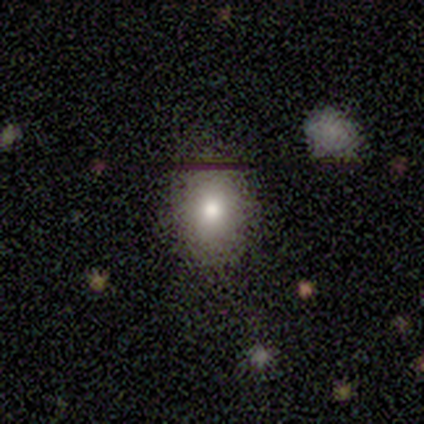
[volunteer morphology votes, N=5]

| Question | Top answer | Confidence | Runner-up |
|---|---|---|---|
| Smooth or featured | smooth | 80% | featured or disk (20%) |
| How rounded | round | 50% | tied: in between (50%) |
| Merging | none | 80% | minor disturbance (20%) |